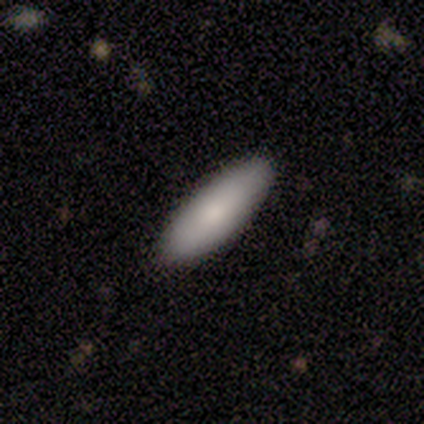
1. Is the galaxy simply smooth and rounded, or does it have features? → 86% smooth, 14% star or artifact, 0% featured or disk.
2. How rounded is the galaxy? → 83% in between, 17% cigar-shaped, 0% round.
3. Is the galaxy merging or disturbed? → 83% none, 17% major disturbance, 0% minor disturbance, 0% merger.